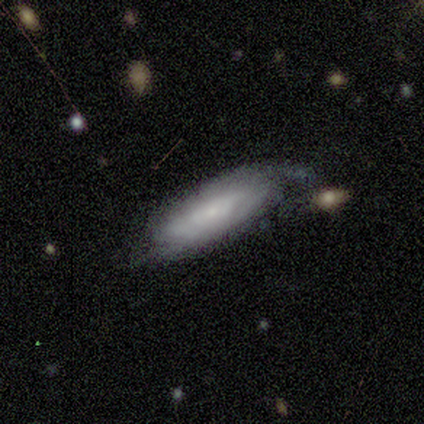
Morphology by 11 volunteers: Volunteers were most divided on "merging" (2-way tie): none: 50%, minor disturbance: 50%, major disturbance: 0%, merger: 0%. More confident: edge-on disk — no (100%); bar — no (86%); bulge size — small (86%); spiral arms — yes (71%); smooth or featured — featured or disk (64%); spiral arm count — 2 (60%); spiral winding — tight (60%).